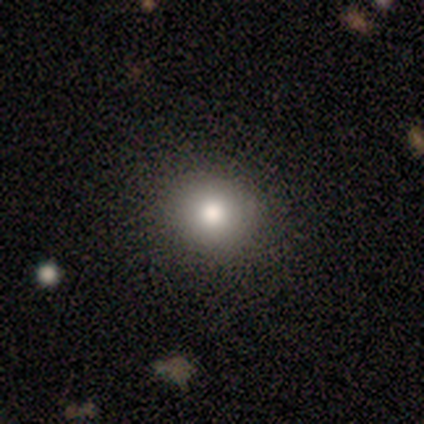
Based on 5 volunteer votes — smooth_or_featured: smooth (p=1.00)
how_rounded: round (p=0.60) [alt: in between p=0.40]
merging: none (p=0.80) [alt: minor disturbance p=0.20]